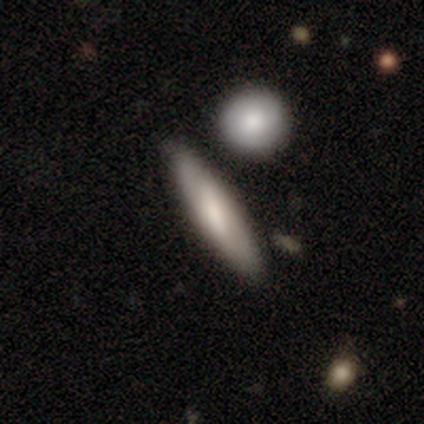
A smooth galaxy with no disk features (80%) that is cigar-shaped (100%).

Vote fractions:
- Smooth or featured? smooth: 80% / featured or disk: 20% / star or artifact: 0%
- How rounded? cigar-shaped: 100% / round: 0% / in between: 0%
- Merging? none: 40% (tied) / minor disturbance: 40% (tied) / merger: 20% / major disturbance: 0%